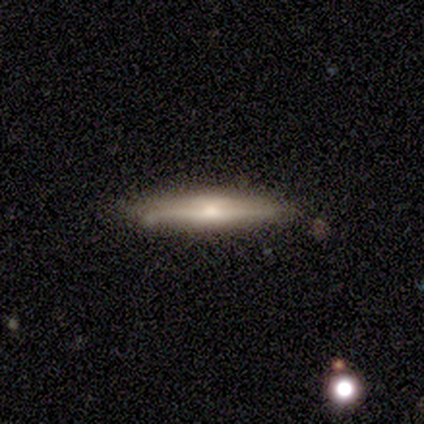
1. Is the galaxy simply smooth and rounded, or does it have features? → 66% featured or disk, 26% smooth, 8% star or artifact.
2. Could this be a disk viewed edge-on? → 100% yes, 0% no.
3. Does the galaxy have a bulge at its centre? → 76% rounded, 16% boxy, 8% none.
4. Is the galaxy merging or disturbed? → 69% none, 17% minor disturbance, 11% merger, 3% major disturbance.